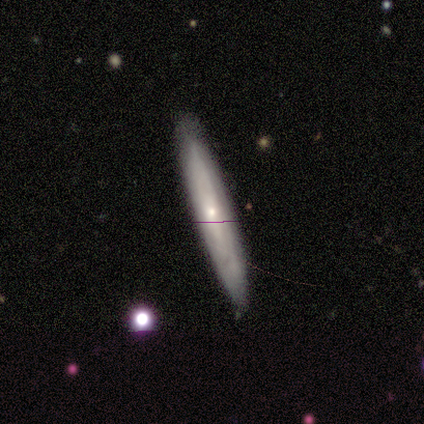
smooth_or_featured: smooth (p=0.50) [tied with: featured or disk p=0.50]
how_rounded: cigar-shaped (p=0.75) [alt: in between p=0.25]
merging: none (p=0.75) [alt: minor disturbance p=0.25]